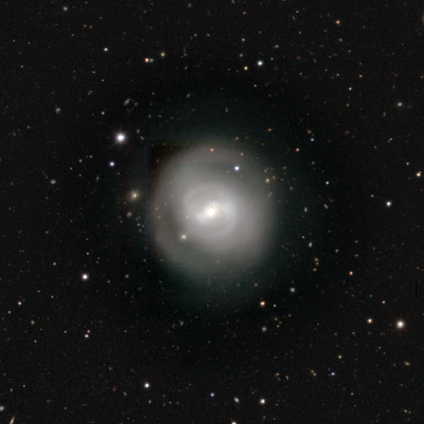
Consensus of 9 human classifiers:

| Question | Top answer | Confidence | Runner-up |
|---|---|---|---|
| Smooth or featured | featured or disk | 78% | smooth (22%) |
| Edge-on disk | no | 100% | — |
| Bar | weak | 71% | no (29%) |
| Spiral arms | yes | 57% | no (43%) |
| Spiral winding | tight | 75% | medium (25%) |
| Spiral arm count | can't tell | 50% | 2 (25%) |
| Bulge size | moderate | 71% | small (29%) |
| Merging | none | 100% | — |